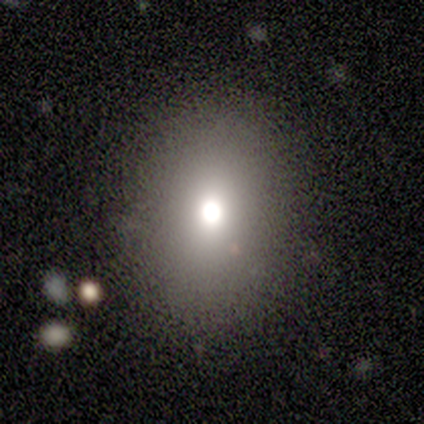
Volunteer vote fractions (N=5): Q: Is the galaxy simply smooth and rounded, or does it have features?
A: smooth — 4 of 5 (80%).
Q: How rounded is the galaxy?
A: round — 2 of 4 (50%, tied with in between).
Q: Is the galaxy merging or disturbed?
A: none — 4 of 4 (100%).